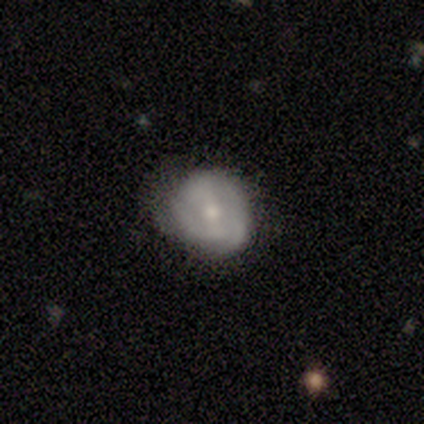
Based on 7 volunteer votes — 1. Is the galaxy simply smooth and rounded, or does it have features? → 57% featured or disk, 43% smooth, 0% star or artifact.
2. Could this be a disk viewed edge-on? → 100% no, 0% yes.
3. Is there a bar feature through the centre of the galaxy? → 75% weak, 25% strong, 0% no.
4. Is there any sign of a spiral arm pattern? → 75% yes, 25% no.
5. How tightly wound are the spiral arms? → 67% tight, 33% medium, 0% loose.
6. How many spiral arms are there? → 67% can't tell, 33% 2, 0% 1, 0% 3, 0% 4, 0% more than 4.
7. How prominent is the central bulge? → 75% moderate, 25% small, 0% dominant, 0% large, 0% none.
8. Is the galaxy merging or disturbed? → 57% minor disturbance, 43% none, 0% major disturbance, 0% merger.